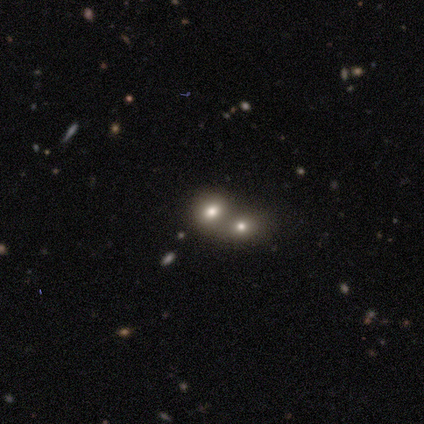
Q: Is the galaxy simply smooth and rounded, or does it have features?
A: smooth — 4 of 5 (80%).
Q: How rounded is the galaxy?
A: round — 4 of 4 (100%).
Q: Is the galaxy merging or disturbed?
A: merger — 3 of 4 (75%).